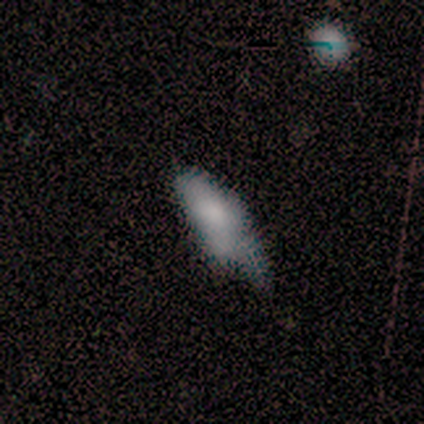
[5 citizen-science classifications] A featured or disk galaxy (60%) with no bar (100%), no spiral arms (100%) and a moderate central bulge (33%, tied with small and none).

Vote fractions:
- Smooth or featured? featured or disk: 60% / smooth: 20% / star or artifact: 20%
- Edge-on disk? no: 100% / yes: 0%
- Bar? no: 100% / strong: 0% / weak: 0%
- Spiral arms? no: 100% / yes: 0%
- Bulge size? moderate: 33% (tied) / small: 33% (tied) / none: 33% (tied) / dominant: 0% / large: 0%
- Merging? major disturbance: 50% / none: 25% / minor disturbance: 25% / merger: 0%